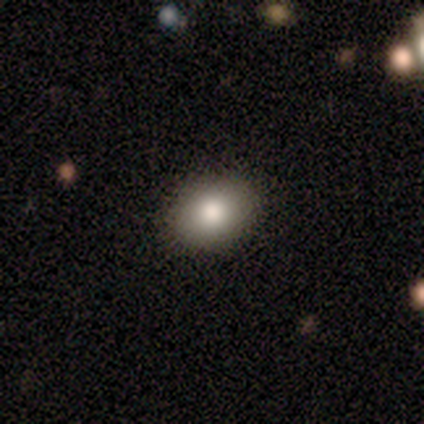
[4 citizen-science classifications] Smooth or featured: smooth — 100%
How rounded: round — 75% (in between — 25%)
Merging: none — 75% (merger — 25%)